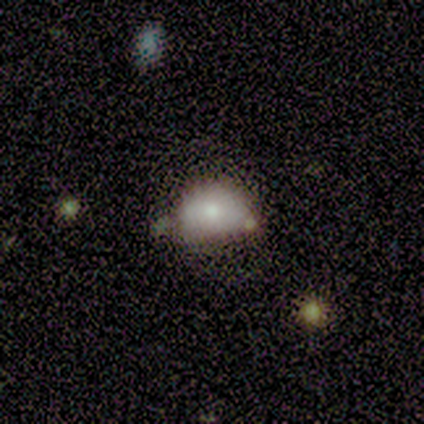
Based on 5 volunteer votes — A smooth galaxy with no disk features (40%, tied with featured or disk) that is round (50%, tied with in between).

Vote fractions:
- Smooth or featured? smooth: 40% (tied) / featured or disk: 40% (tied) / star or artifact: 20%
- How rounded? round: 50% (tied) / in between: 50% (tied) / cigar-shaped: 0%
- Merging? none: 75% / major disturbance: 25% / minor disturbance: 0% / merger: 0%